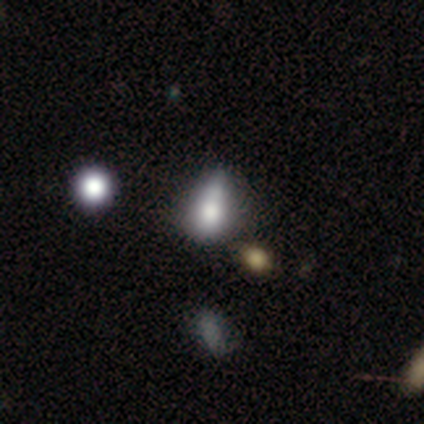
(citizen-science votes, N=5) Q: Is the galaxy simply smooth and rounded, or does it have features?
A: smooth — 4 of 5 (80%).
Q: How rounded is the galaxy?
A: in between — 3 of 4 (75%).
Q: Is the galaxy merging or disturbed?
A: minor disturbance — 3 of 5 (60%).